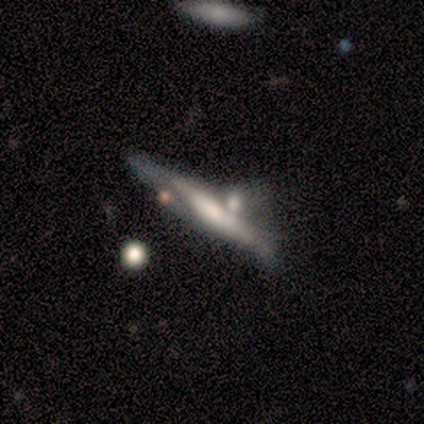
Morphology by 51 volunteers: This is likely a featured or disk galaxy (73%). It is likely viewed edge-on (76%). Edge-on bulge: marginally none (43%). Merging: marginally merger (38%).